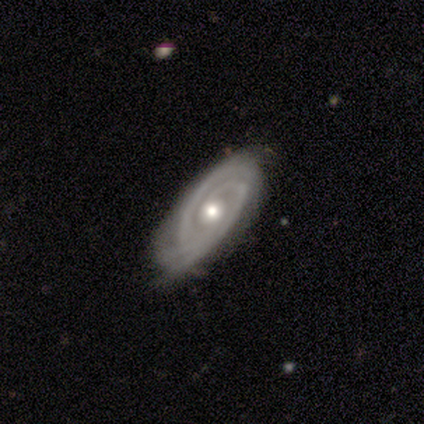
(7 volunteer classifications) Overall: featured or disk (100%). Edge-on disk: no (100%). Bar: no (71%). Spiral arms: yes (86%). Spiral arm count: 2 (100%). Spiral winding: tight (50%, tied with medium). Bulge size: moderate (86%). Merging: none (57%; minor disturbance 43%).